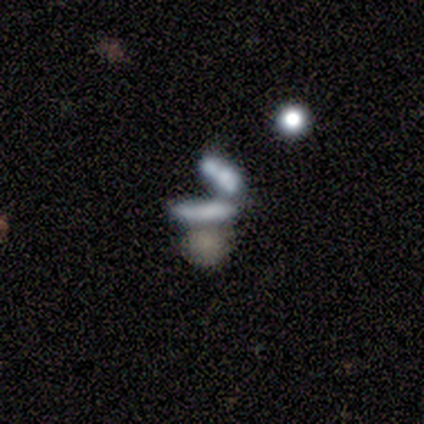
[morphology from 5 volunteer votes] Smooth or featured: featured or disk — 60% (smooth — 20%)
Edge-on disk: no — 100%
Bar: no — 100%
Spiral arms: no — 100%
Bulge size: none — 100%
Merging: none — 50% (tied with merger — 50%)